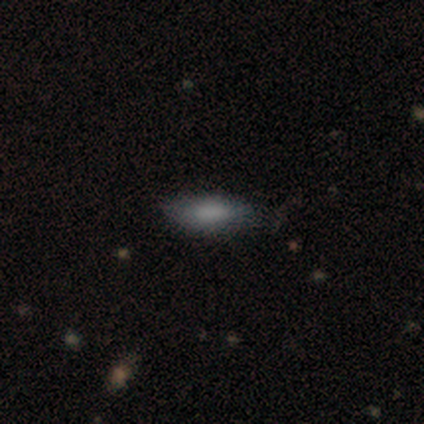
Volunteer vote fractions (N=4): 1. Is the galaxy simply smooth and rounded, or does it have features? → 50% smooth (tied), 50% star or artifact (tied), 0% featured or disk.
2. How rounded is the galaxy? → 100% cigar-shaped, 0% round, 0% in between.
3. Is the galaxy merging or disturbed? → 50% none (tied), 50% minor disturbance (tied), 0% major disturbance, 0% merger.